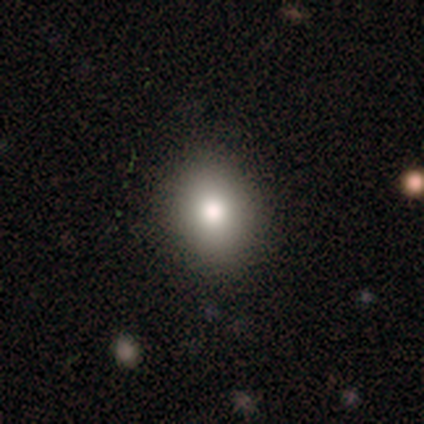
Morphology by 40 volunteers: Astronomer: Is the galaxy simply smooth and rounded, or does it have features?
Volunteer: smooth — 78%.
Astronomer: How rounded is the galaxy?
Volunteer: in between — 52% (runner-up: round, 48%).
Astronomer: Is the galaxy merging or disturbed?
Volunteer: none — 69%.